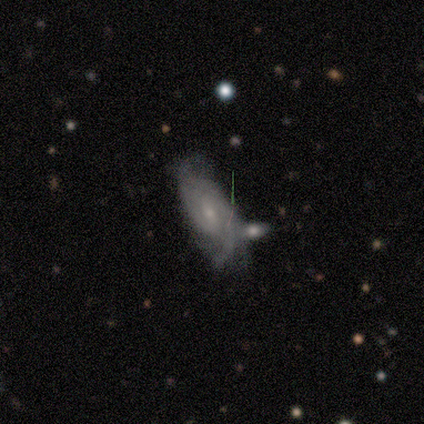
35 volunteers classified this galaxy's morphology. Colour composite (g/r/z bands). It shows a featured or disk galaxy (69%) with a weak bar (52%), 2 (62%) medium (48%) spiral arms (91%) and a small central bulge (57%). Merging: merger (32%).